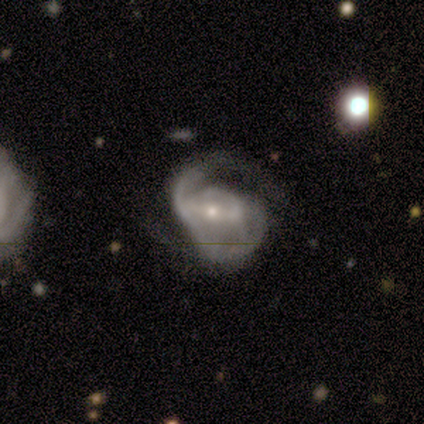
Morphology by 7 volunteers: Smooth or featured? featured or disk (86%)
Edge-on disk? no (83%)
Bar? weak (60%)
Spiral arms? yes (100%)
Spiral winding? medium (80%)
Spiral arm count? 2 (60%)
Bulge size? small (60%)
Merging? minor disturbance (43%, tied with major disturbance)